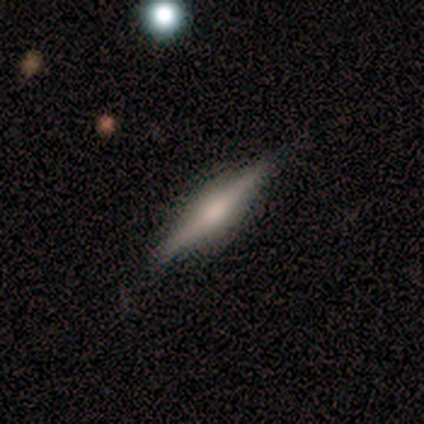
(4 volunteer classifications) featured or disk 100%, smooth 0%, star or artifact 0%. Down the decision tree: edge-on disk — yes (100%); edge-on bulge — rounded (100%); merging — none (100%).